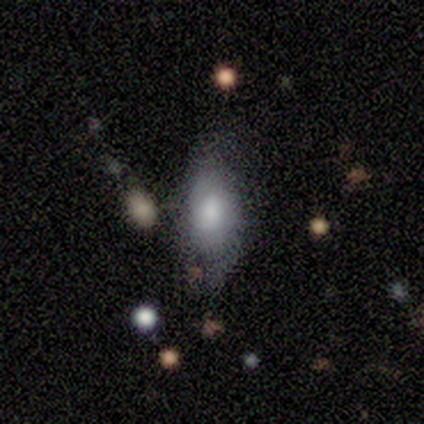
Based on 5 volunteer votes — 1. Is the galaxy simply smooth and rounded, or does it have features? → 40% smooth (tied), 40% featured or disk (tied), 20% star or artifact.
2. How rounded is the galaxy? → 100% in between, 0% round, 0% cigar-shaped.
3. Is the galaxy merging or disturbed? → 75% none, 25% minor disturbance, 0% major disturbance, 0% merger.